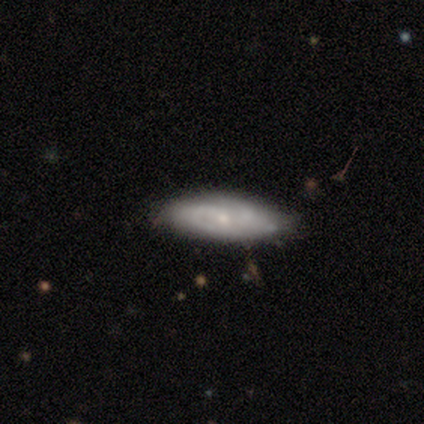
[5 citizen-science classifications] smooth_or_featured: smooth (p=0.60) [alt: featured or disk p=0.40]
how_rounded: in between (p=1.00)
merging: none (p=0.80) [alt: minor disturbance p=0.20]